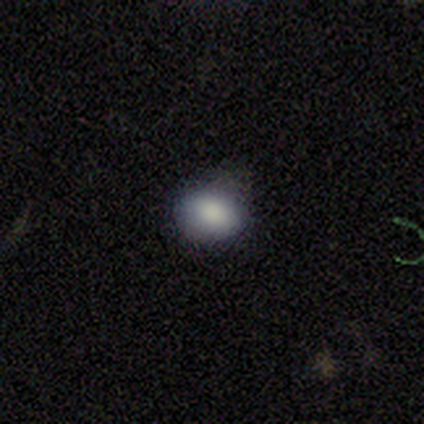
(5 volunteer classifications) This is clearly a smooth galaxy (80%). How rounded: possibly round (50%, tied with in between). Merging: clearly none (100%).